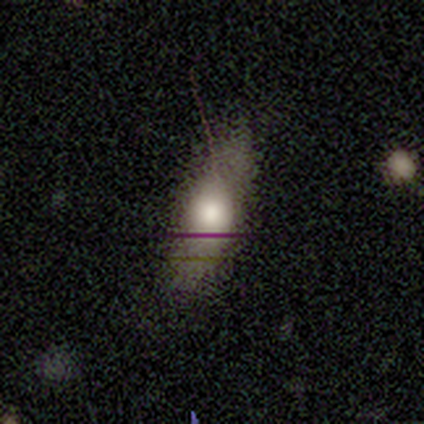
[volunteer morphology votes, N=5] Overall: smooth (60%; featured or disk 20%). How rounded: cigar-shaped (67%; in between 33%). Merging: none (50%, tied with minor disturbance).